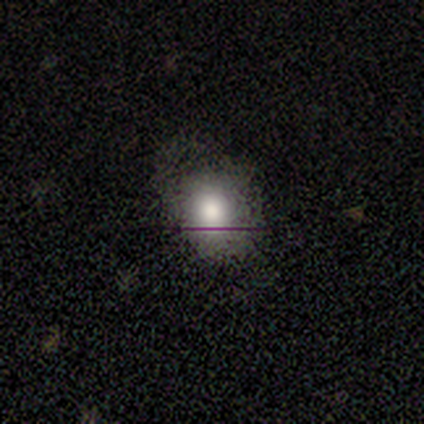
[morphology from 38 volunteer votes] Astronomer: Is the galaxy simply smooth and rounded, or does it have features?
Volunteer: smooth — 82%.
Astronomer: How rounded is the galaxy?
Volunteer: round — 68%.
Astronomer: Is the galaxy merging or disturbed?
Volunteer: none — 56%.